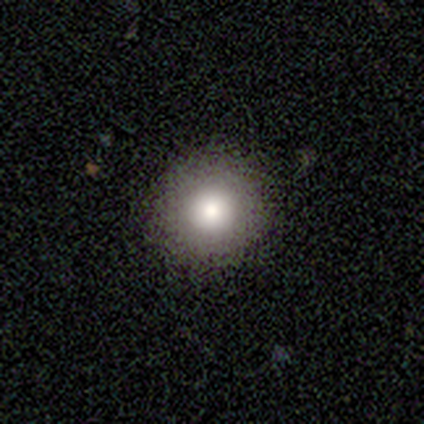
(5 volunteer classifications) Smooth or featured? smooth (100%)
How rounded? round (100%)
Merging? none (100%)